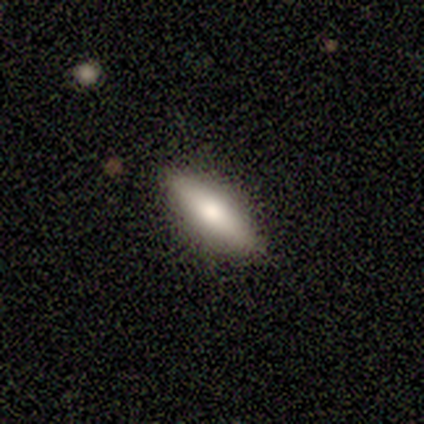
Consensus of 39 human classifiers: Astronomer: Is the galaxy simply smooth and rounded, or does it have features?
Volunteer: smooth — 56% (runner-up: featured or disk, 38%).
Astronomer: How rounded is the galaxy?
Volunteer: cigar-shaped — 73%.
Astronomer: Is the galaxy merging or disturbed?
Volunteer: none — 84%.